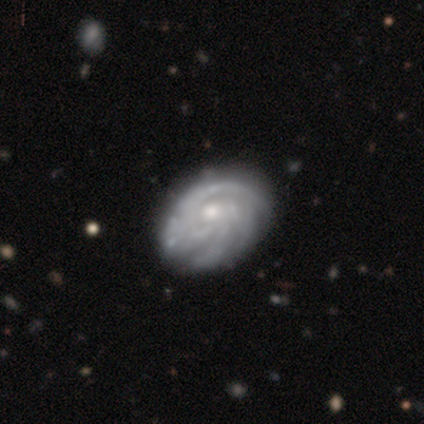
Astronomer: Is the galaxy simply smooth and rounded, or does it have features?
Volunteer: featured or disk — 89%.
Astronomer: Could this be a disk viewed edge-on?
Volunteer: no — 100%.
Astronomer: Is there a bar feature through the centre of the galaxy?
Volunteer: no — 75%.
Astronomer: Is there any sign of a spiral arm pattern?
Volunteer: yes — 88%.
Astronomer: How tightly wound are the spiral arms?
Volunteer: tight — 86%.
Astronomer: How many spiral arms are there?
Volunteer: can't tell — 57%.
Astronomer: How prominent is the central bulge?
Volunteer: moderate — 75%.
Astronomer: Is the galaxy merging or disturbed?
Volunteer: none — 78%.